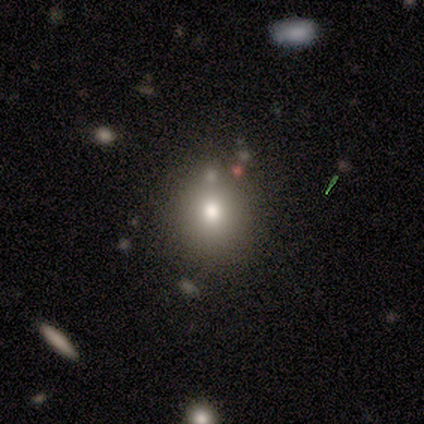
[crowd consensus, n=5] smooth_or_featured: smooth (p=0.80) [alt: star or artifact p=0.20]
how_rounded: round (p=1.00)
merging: none (p=0.75) [alt: minor disturbance p=0.25]